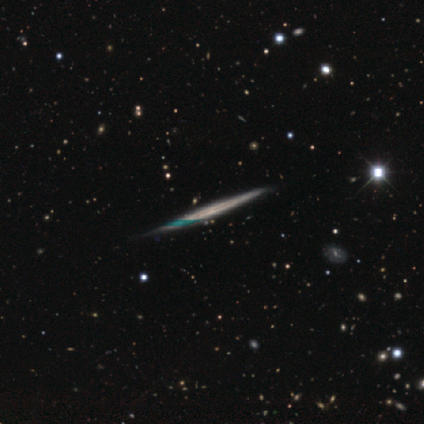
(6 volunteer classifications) A featured or disk galaxy (83%) viewed edge-on (100%) with no central bulge (100%). Merging: none (83%).